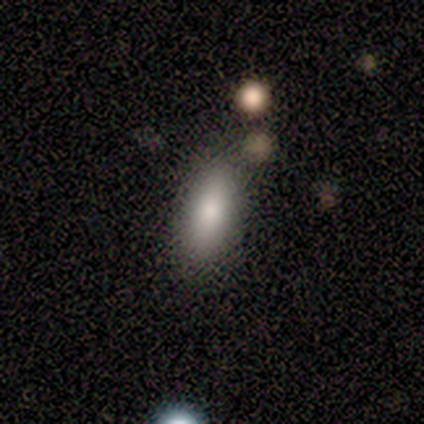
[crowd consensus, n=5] smooth-or-featured: smooth: 100% | featured or disk: 0% | star or artifact: 0%
  how-rounded: in between: 80% | cigar-shaped: 20% | round: 0%
  merging: none: 100% | minor disturbance: 0% | major disturbance: 0% | merger: 0%